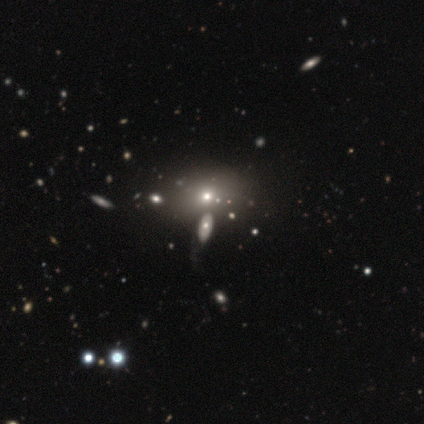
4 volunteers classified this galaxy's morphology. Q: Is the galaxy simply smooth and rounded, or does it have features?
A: featured or disk — 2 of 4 (50%).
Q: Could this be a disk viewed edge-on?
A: no — 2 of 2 (100%).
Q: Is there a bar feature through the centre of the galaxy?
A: no — 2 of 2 (100%).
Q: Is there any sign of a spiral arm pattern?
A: no — 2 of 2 (100%).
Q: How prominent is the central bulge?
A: moderate — 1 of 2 (50%, tied with small).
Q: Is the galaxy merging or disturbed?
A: none — 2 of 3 (67%).